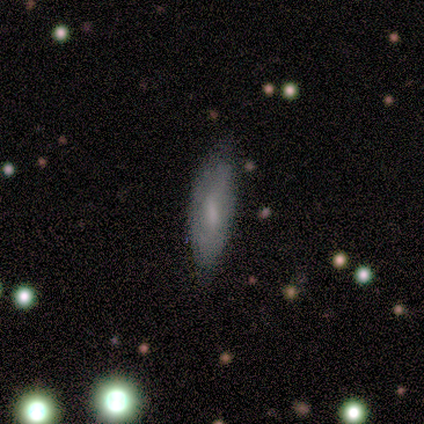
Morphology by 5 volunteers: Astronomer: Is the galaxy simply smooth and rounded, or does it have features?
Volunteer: smooth — 40%, tied with featured or disk at 40%.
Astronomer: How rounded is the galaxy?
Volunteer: in between — 100%.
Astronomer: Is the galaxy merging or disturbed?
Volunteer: none — 75%.